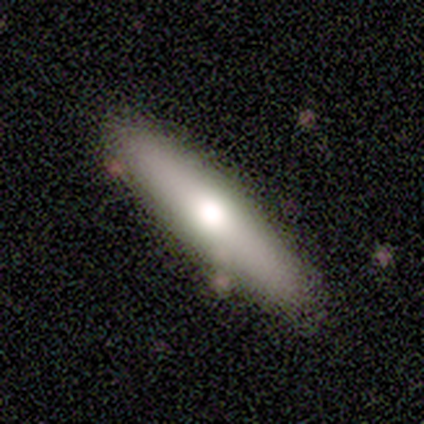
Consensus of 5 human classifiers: smooth 80%, featured or disk 20%, star or artifact 0%. Down the decision tree: how rounded — in between (50%, tied with cigar-shaped); merging — none (80%).